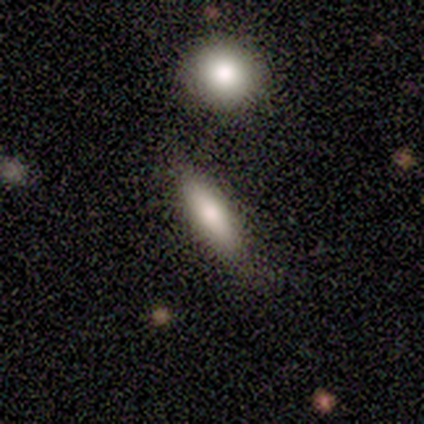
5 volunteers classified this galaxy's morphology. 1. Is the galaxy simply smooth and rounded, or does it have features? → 40% smooth (tied), 40% star or artifact (tied), 20% featured or disk.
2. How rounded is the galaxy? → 100% cigar-shaped, 0% round, 0% in between.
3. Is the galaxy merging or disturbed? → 100% none, 0% minor disturbance, 0% major disturbance, 0% merger.